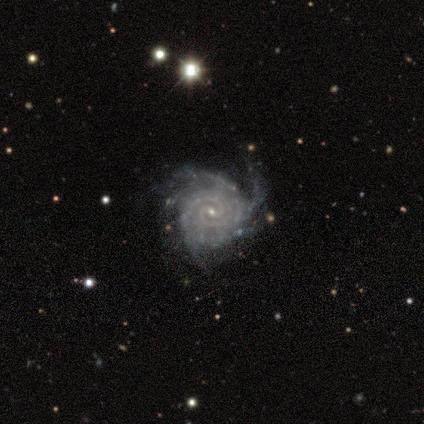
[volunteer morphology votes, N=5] Smooth or featured? 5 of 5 (100%) said featured or disk. Edge-on disk? 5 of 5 (100%) said no. Bar? 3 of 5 (60%) said weak. Spiral arms? 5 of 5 (100%) said yes. Spiral winding? 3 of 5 (60%) said tight. Spiral arm count? 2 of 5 (40%, tied with 4) said 3. Bulge size? 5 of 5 (100%) said small. Merging? 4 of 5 (80%) said none.